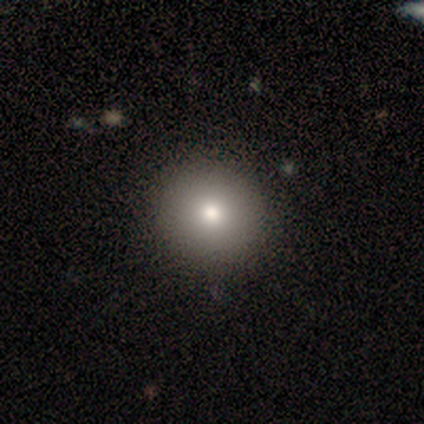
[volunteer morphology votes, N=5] Smooth or featured? 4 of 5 (80%) said smooth. How rounded? 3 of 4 (75%) said round. Merging? 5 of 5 (100%) said none.